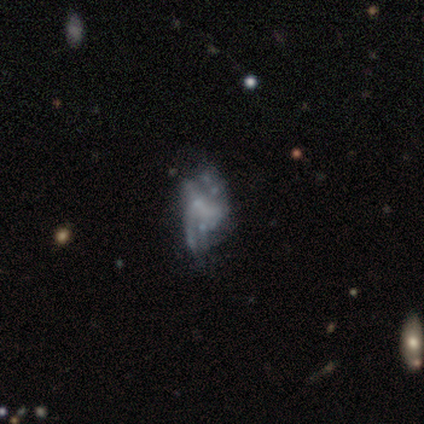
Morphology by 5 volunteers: Q: Smooth or featured?
A: featured or disk (60%); runner-up: smooth (20%)
Q: Edge-on disk?
A: no (100%)
Q: Bar?
A: no (100%)
Q: Spiral arms?
A: no (67%); runner-up: yes (33%)
Q: Bulge size?
A: none (100%)
Q: Merging?
A: none (50%); runner-up: major disturbance (25%)